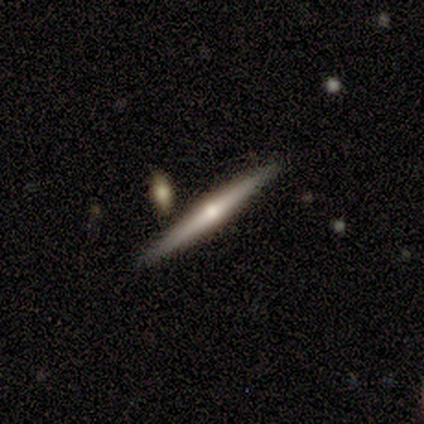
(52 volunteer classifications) Q: Smooth or featured?
A: featured or disk (71%); runner-up: smooth (23%)
Q: Edge-on disk?
A: yes (95%); runner-up: no (5%)
Q: Edge-on bulge?
A: rounded (89%); runner-up: none (11%)
Q: Merging?
A: none (88%); runner-up: merger (6%)